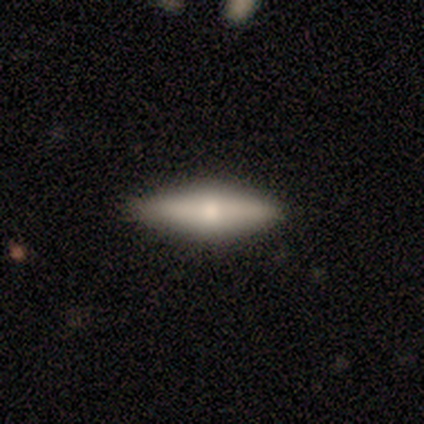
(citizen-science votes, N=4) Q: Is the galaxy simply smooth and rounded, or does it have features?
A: smooth — 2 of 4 (50%, tied with featured or disk).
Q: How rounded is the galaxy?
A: in between — 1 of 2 (50%, tied with cigar-shaped).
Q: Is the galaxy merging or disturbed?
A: none — 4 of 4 (100%).